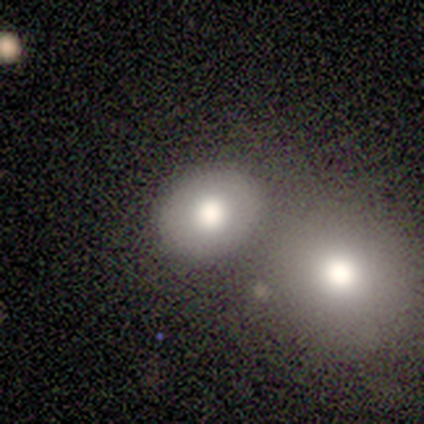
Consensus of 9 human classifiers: Smooth or featured?
  - smooth: 89% *
  - star or artifact: 11%
  - featured or disk: 0%
How rounded?
  - round: 50% * (tied)
  - in between: 50% * (tied)
  - cigar-shaped: 0%
Merging?
  - none: 88% *
  - merger: 12%
  - minor disturbance: 0%
  - major disturbance: 0%